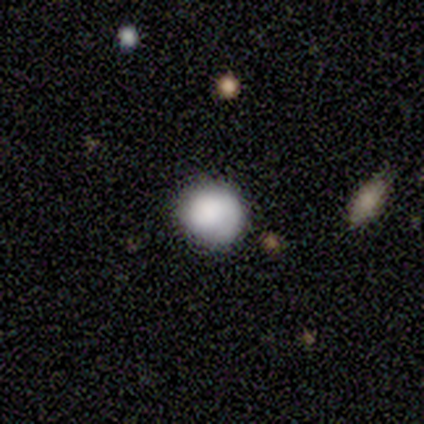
smooth 100%, featured or disk 0%, star or artifact 0%. Down the decision tree: how rounded — round (80%); merging — none (80%).